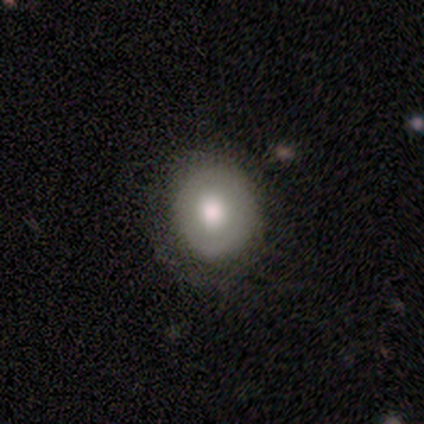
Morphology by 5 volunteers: smooth_or_featured: smooth (p=0.60) [alt: featured or disk p=0.20]
how_rounded: round (p=1.00)
merging: none (p=0.50) [tied with: minor disturbance p=0.50]